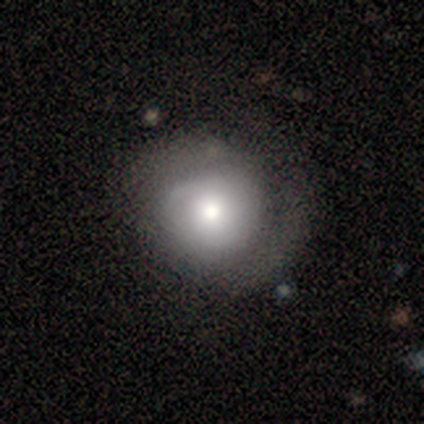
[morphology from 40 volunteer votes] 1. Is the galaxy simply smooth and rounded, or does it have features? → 52% featured or disk, 48% smooth, 0% star or artifact.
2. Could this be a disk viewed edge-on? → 95% no, 5% yes.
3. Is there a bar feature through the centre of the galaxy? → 75% no, 15% weak, 10% strong.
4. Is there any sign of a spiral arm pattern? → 80% yes, 20% no.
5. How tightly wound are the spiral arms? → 44% tight, 31% loose, 25% medium.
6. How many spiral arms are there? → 44% 2, 31% can't tell, 25% 1, 0% 3, 0% 4, 0% more than 4.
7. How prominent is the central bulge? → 55% moderate, 25% large, 15% small, 5% dominant, 0% none.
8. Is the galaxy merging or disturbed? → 30% none (tied), 30% minor disturbance (tied), 15% major disturbance, 0% merger.